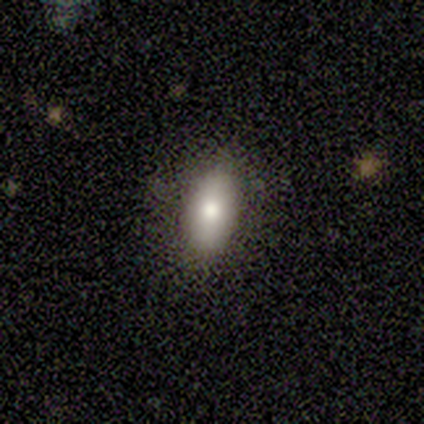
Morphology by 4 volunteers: Overall: smooth (75%). How rounded: in between (67%; cigar-shaped 33%). Merging: none (75%).